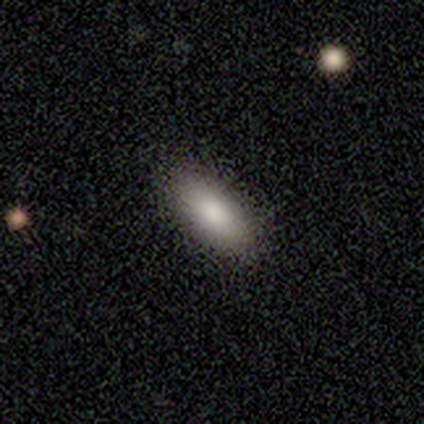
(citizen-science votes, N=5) Smooth or featured? 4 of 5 (80%) said smooth. How rounded? 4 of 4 (100%) said in between. Merging? 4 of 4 (100%) said none.